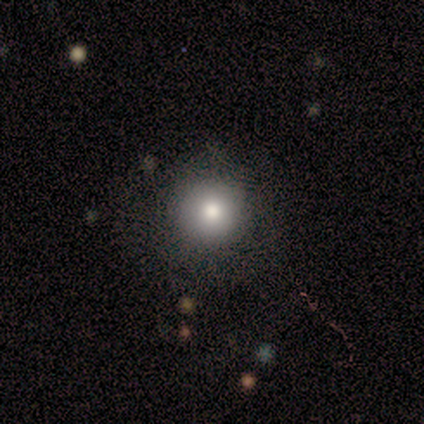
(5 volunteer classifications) smooth_or_featured: smooth (p=0.80) [alt: star or artifact p=0.20]
how_rounded: round (p=0.75) [alt: in between p=0.25]
merging: none (p=0.75) [alt: major disturbance p=0.25]